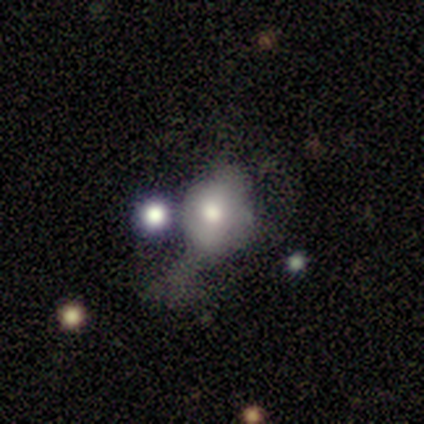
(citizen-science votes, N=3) A smooth galaxy with no disk features (67%) that is round (50%, tied with in between). Merging: major disturbance (67%).